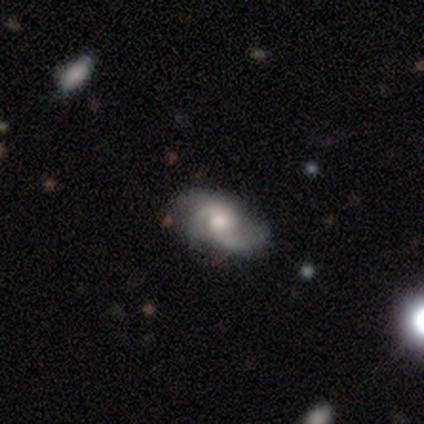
This appears to be a featured or disk galaxy (71%) with no bar (100%), 2 (40%, tied with 3) loose (60%) spiral arms (100%) and a moderate central bulge (40%). Merging: none (86%).